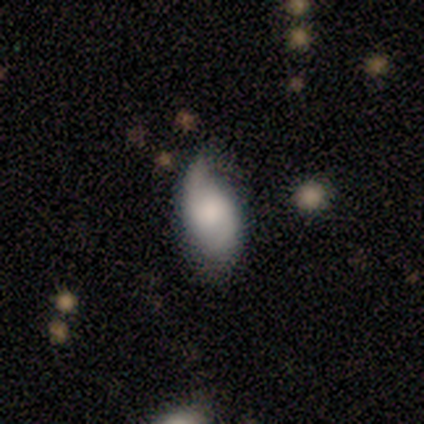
A smooth galaxy with no disk features (67%) that is in between round and cigar-shaped (100%).

Vote fractions:
- Smooth or featured? smooth: 67% / featured or disk: 33% / star or artifact: 0%
- How rounded? in between: 100% / round: 0% / cigar-shaped: 0%
- Merging? minor disturbance: 67% / none: 33% / major disturbance: 0% / merger: 0%